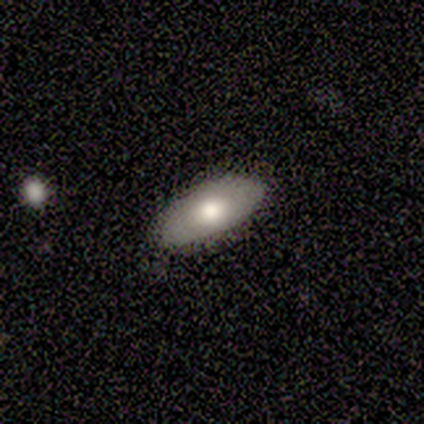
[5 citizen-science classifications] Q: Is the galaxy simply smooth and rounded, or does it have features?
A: smooth — 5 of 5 (100%).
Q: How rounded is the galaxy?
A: in between — 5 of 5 (100%).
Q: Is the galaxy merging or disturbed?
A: none — 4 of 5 (80%).